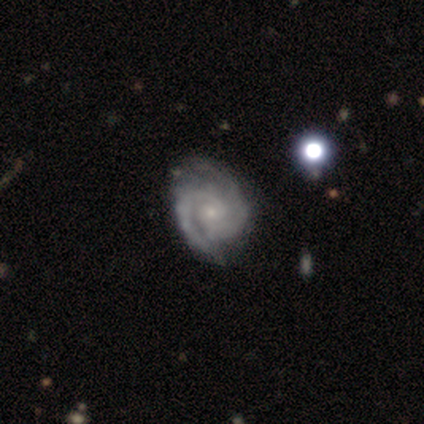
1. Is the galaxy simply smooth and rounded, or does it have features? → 87% featured or disk, 8% smooth, 6% star or artifact.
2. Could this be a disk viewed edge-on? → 100% no, 0% yes.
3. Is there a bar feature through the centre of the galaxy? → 74% no, 24% weak, 2% strong.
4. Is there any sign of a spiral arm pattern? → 100% yes, 0% no.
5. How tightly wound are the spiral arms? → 70% tight, 30% medium, 0% loose.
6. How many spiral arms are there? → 89% 2, 7% 3, 4% can't tell, 0% 1, 0% 4, 0% more than 4.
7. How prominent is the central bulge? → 85% small, 13% moderate, 2% none, 0% dominant, 0% large.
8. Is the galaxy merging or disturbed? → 60% none, 30% minor disturbance, 8% major disturbance, 2% merger.